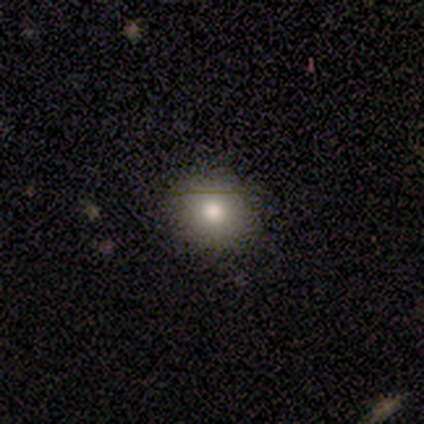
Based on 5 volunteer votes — smooth 80%, star or artifact 20%, featured or disk 0%. Down the decision tree: how rounded — round (75%); merging — none (50%, tied with minor disturbance).